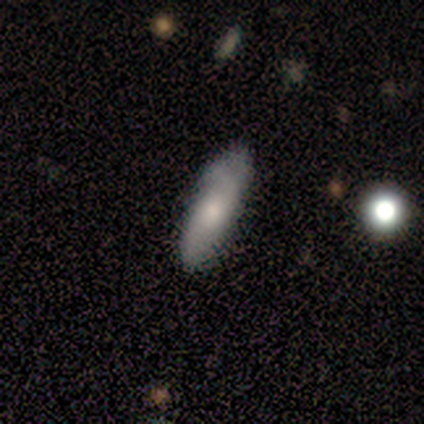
smooth-or-featured: smooth: 40% (tied) | featured or disk: 40% (tied) | star or artifact: 20%
  how-rounded: cigar-shaped: 100% | round: 0% | in between: 0%
  merging: none: 75% | minor disturbance: 25% | major disturbance: 0% | merger: 0%